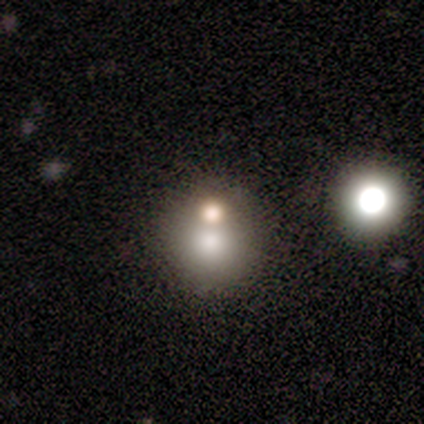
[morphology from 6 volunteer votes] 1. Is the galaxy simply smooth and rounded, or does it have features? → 83% smooth, 17% star or artifact, 0% featured or disk.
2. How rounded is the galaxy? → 100% round, 0% in between, 0% cigar-shaped.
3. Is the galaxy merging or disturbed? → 60% none, 40% merger, 0% minor disturbance, 0% major disturbance.